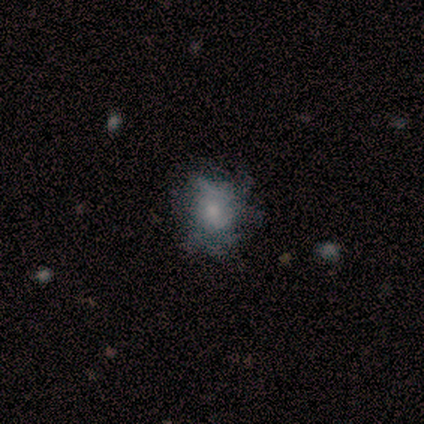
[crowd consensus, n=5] Volunteers were most divided on "merging": none: 50%, minor disturbance: 25%, major disturbance: 25%, merger: 0%. More confident: how rounded — round (67%); smooth or featured — smooth (60%).